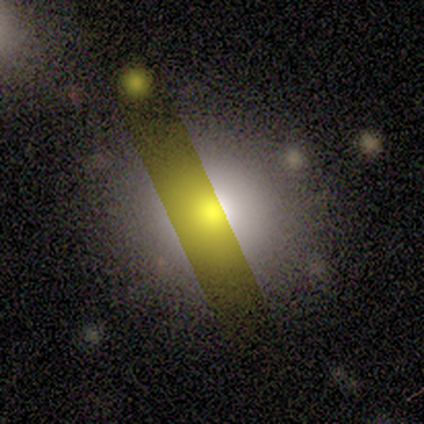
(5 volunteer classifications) Morphology: type=smooth (60%); roundness=round (100%); merging=none (100%).